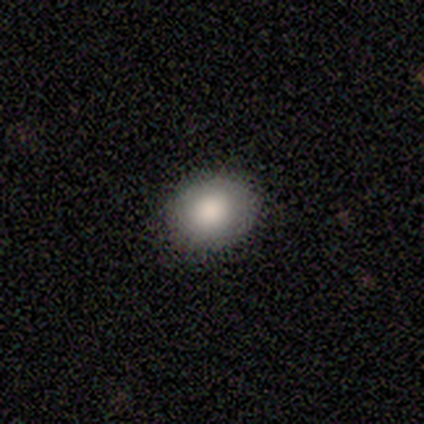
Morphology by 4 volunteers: A smooth galaxy with no disk features (100%) that is in between round and cigar-shaped (75%).

Vote fractions:
- Smooth or featured? smooth: 100% / featured or disk: 0% / star or artifact: 0%
- How rounded? in between: 75% / round: 25% / cigar-shaped: 0%
- Merging? none: 100% / minor disturbance: 0% / major disturbance: 0% / merger: 0%